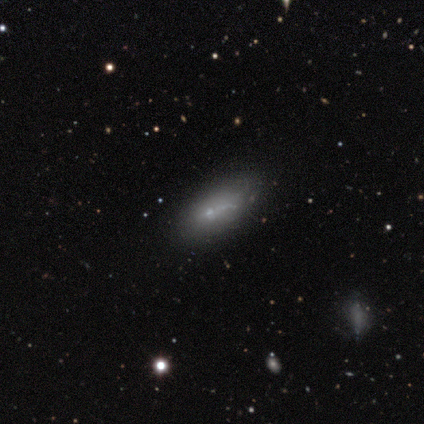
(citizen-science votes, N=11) Overall: featured or disk (45%; smooth 36%). Edge-on disk: no (80%). Bar: no (100%). Spiral arms: no (100%). Bulge size: small (50%, tied with none). Merging: none (56%; major disturbance 22%).